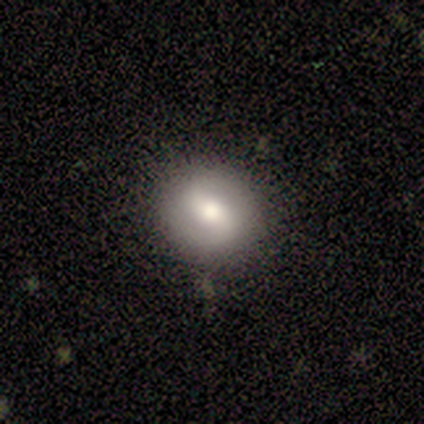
Smooth or featured: star or artifact — 60% (smooth — 20%)